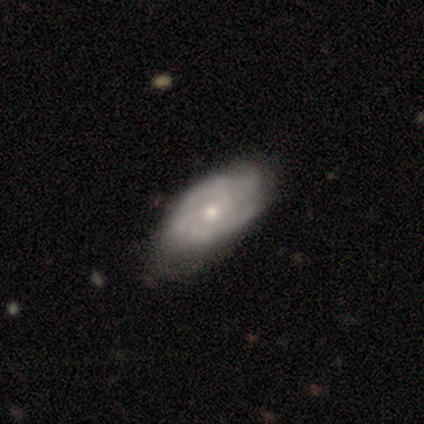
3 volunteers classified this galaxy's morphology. This appears to be a featured or disk galaxy (67%) viewed edge-on (50%, tied with no) with a rounded central bulge (100%). Merging: none (33%, tied with minor disturbance and major disturbance).